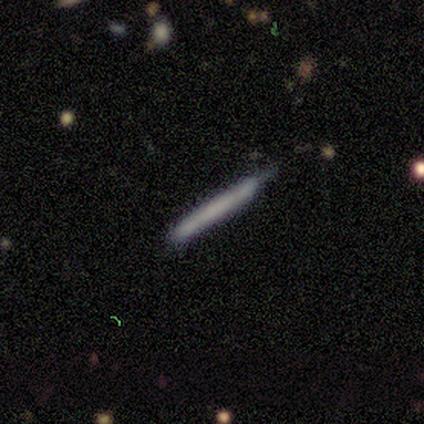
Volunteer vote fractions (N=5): A smooth galaxy with no disk features (80%) that is cigar-shaped (100%). Merging: none (60%).